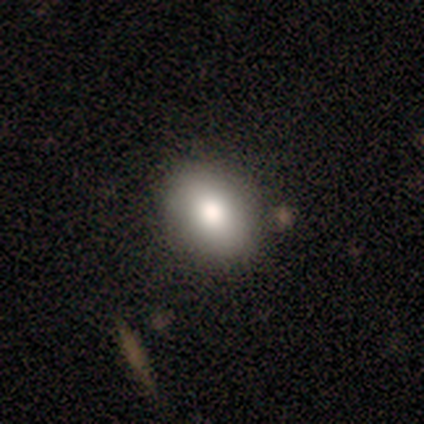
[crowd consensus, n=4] A smooth galaxy with no disk features (100%) that is in between round and cigar-shaped (75%).

Vote fractions:
- Smooth or featured? smooth: 100% / featured or disk: 0% / star or artifact: 0%
- How rounded? in between: 75% / round: 25% / cigar-shaped: 0%
- Merging? none: 100% / minor disturbance: 0% / major disturbance: 0% / merger: 0%